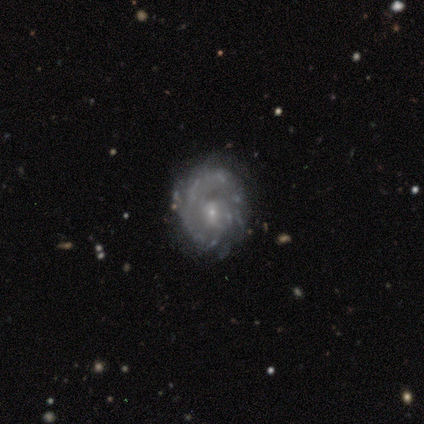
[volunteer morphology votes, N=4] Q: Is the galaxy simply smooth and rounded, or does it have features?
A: featured or disk — 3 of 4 (75%).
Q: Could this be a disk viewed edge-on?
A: no — 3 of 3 (100%).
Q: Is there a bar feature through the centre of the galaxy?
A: no — 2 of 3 (67%).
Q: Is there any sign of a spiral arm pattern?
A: yes — 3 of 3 (100%).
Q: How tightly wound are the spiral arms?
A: tight — 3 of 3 (100%).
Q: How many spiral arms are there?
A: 1 — 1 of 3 (33%, tied with 4 and can't tell).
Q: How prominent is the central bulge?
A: small — 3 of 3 (100%).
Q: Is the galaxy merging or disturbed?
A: none — 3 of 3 (100%).